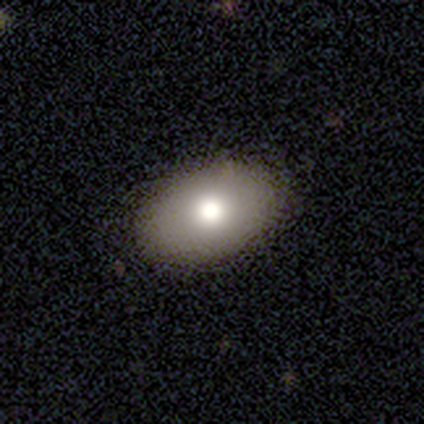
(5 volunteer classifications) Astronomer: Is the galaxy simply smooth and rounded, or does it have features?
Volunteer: smooth — 100%.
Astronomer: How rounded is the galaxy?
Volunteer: in between — 100%.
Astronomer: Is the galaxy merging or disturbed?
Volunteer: none — 100%.